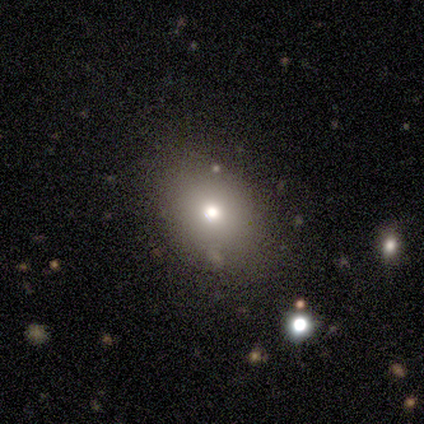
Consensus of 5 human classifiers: A smooth galaxy with no disk features (80%) that is round (75%). Merging: none (100%).